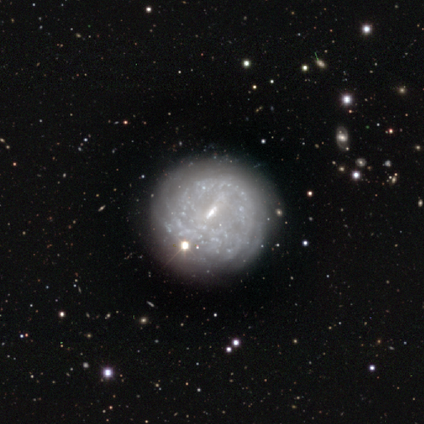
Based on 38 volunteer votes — Smooth or featured: featured or disk — 79% (star or artifact — 16%)
Edge-on disk: no — 100%
Bar: weak — 53% (strong — 23%)
Spiral arms: yes — 67% (no — 33%)
Spiral winding: tight — 75% (medium — 20%)
Spiral arm count: can't tell — 70% (4 — 15%)
Bulge size: small — 53% (moderate — 23%)
Merging: none — 66% (minor disturbance — 25%)